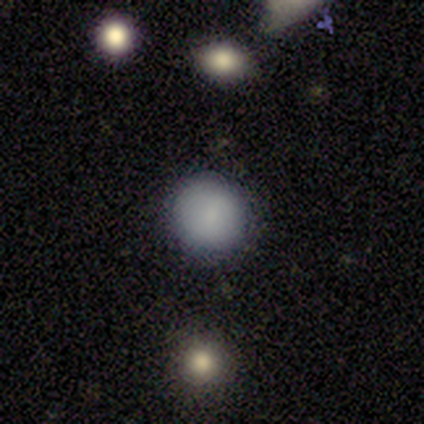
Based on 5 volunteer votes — smooth 100%, featured or disk 0%, star or artifact 0%. Down the decision tree: how rounded — round (100%); merging — none (100%).